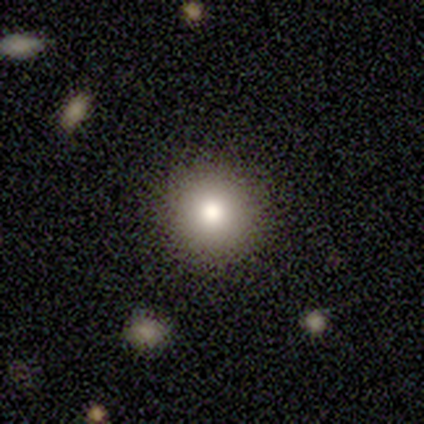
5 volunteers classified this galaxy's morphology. Overall: smooth (100%). How rounded: round (100%). Merging: none (80%).